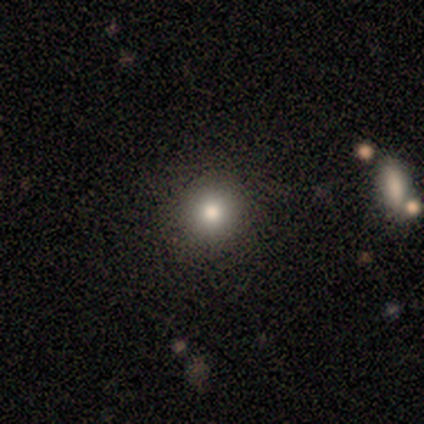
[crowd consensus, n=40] smooth_or_featured: smooth (p=0.72) [alt: featured or disk p=0.15]
how_rounded: round (p=0.90) [alt: in between p=0.10]
merging: none (p=0.71) [alt: merger p=0.03]